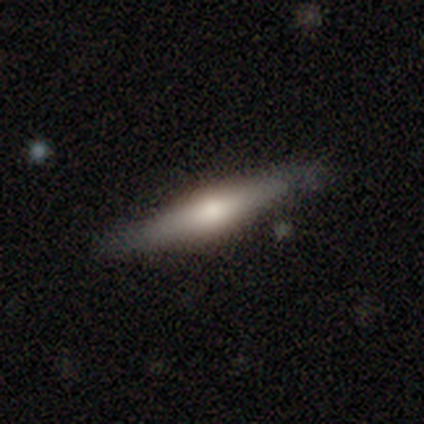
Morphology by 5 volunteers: Overall: featured or disk (60%; smooth 40%). Edge-on disk: yes (100%). Edge-on bulge: rounded (100%). Merging: none (100%).